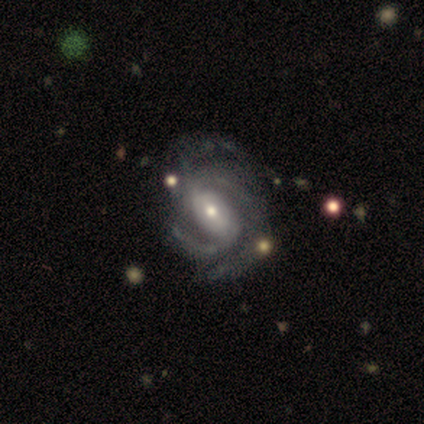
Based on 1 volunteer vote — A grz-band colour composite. It shows a featured or disk galaxy (100%) with no bar (100%), tight (100%) spiral arms (100%) and a small central bulge (100%). Merging: minor disturbance (100%).